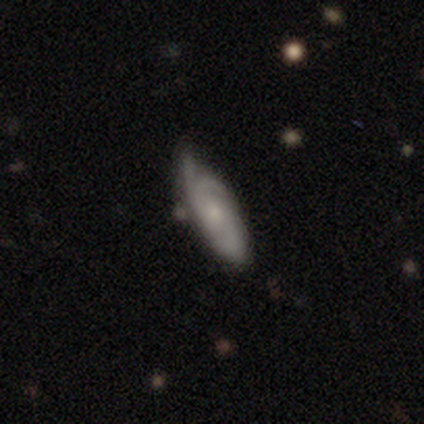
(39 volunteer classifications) A featured or disk galaxy (56%) with no bar (70%), 2 (33%) tight (50%) spiral arms (90%) and a small central bulge (70%). Merging: none (51%).